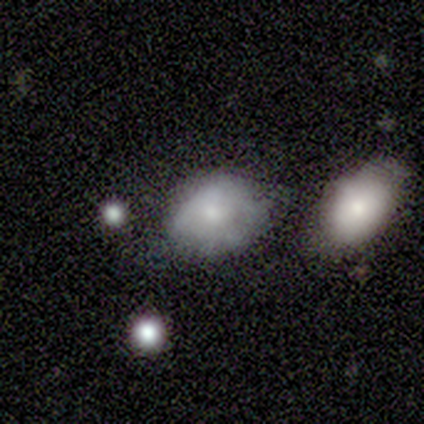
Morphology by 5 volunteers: A featured or disk galaxy (60%) with no bar (100%), medium (67%) spiral arms (100%) and a moderate central bulge (67%). Merging: none (60%).